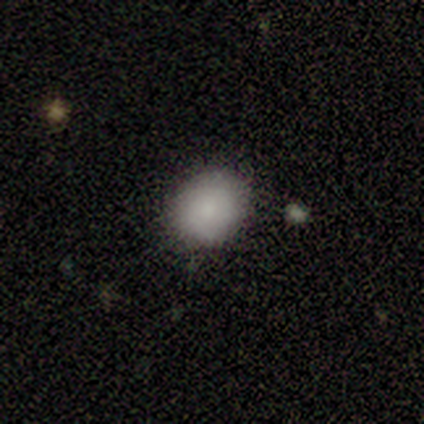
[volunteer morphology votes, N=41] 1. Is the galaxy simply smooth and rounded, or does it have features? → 78% smooth, 20% featured or disk, 2% star or artifact.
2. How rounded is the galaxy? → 84% round, 16% in between, 0% cigar-shaped.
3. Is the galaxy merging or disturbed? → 75% none, 18% minor disturbance, 8% merger, 0% major disturbance.